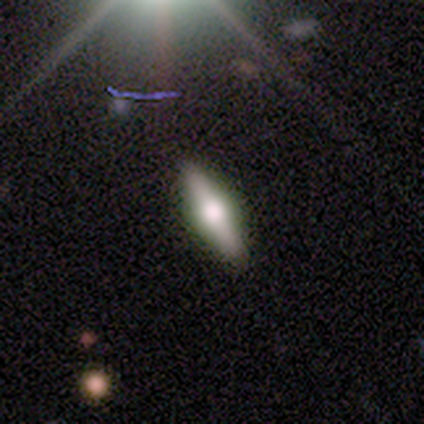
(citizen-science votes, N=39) This is likely a featured or disk galaxy (67%). It is clearly viewed edge-on (92%). Edge-on bulge: clearly rounded (96%). Merging: clearly none (89%).